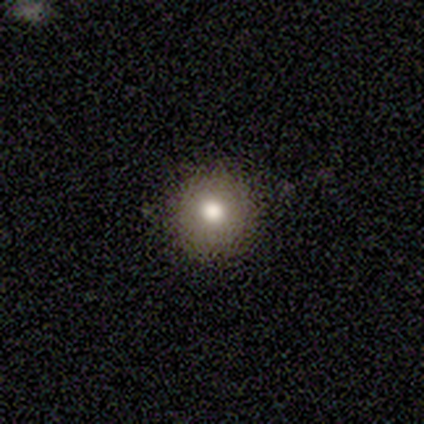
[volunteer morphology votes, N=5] Smooth or featured?
  - smooth: 80% *
  - featured or disk: 20%
  - star or artifact: 0%
How rounded?
  - round: 100% *
  - in between: 0%
  - cigar-shaped: 0%
Merging?
  - none: 80% *
  - major disturbance: 20%
  - minor disturbance: 0%
  - merger: 0%